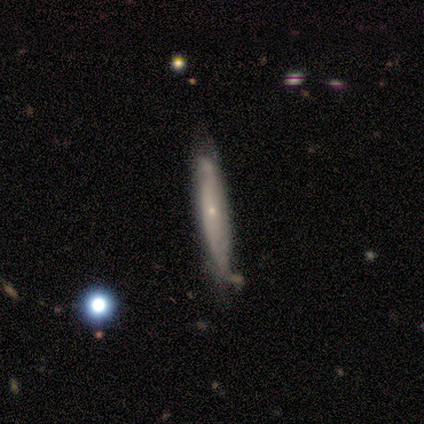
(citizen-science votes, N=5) smooth-or-featured: smooth: 60% | featured or disk: 40% | star or artifact: 0%
  how-rounded: cigar-shaped: 100% | round: 0% | in between: 0%
  merging: none: 80% | minor disturbance: 20% | major disturbance: 0% | merger: 0%